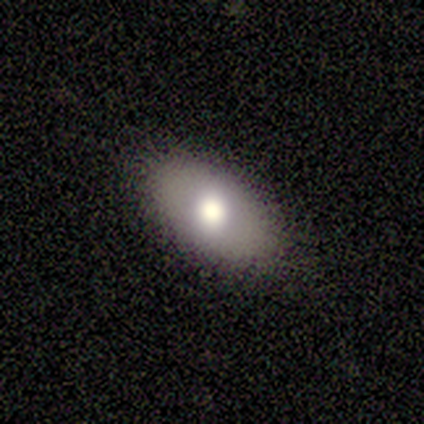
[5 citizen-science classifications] smooth-or-featured: smooth: 100% | featured or disk: 0% | star or artifact: 0%
  how-rounded: in between: 80% | cigar-shaped: 20% | round: 0%
  merging: none: 80% | minor disturbance: 20% | major disturbance: 0% | merger: 0%